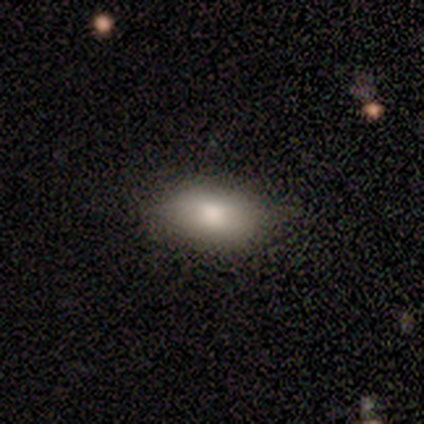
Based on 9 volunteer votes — Smooth or featured?
  - smooth: 67% *
  - featured or disk: 33%
  - star or artifact: 0%
How rounded?
  - in between: 100% *
  - round: 0%
  - cigar-shaped: 0%
Merging?
  - none: 89% *
  - minor disturbance: 11%
  - major disturbance: 0%
  - merger: 0%